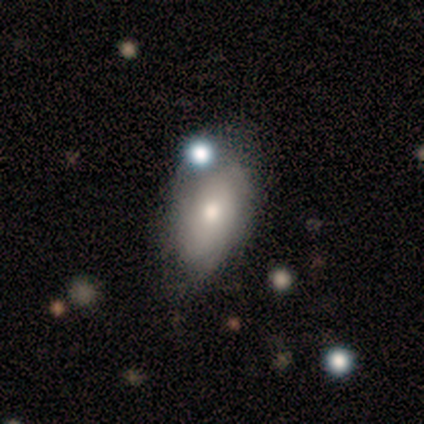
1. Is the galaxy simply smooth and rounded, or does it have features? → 78% smooth, 11% featured or disk, 11% star or artifact.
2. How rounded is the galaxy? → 100% in between, 0% round, 0% cigar-shaped.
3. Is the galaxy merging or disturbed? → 62% none, 25% minor disturbance, 12% merger, 0% major disturbance.